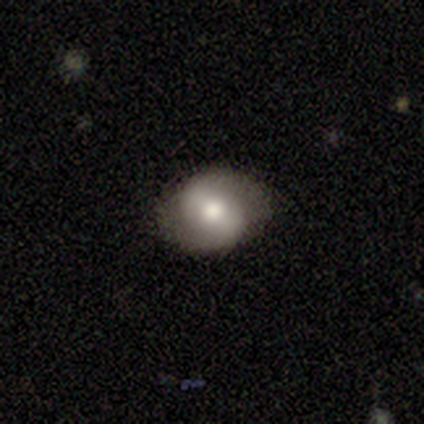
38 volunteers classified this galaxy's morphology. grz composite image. It shows a featured or disk galaxy (53%) with a weak bar (55%), 2 (93%) loose (57%) spiral arms (70%) and a moderate central bulge (60%). Merging: none (82%).